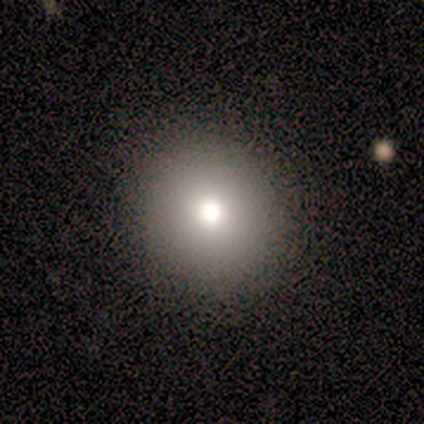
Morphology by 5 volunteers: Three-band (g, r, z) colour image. It shows a smooth galaxy with no disk features (60%) that is round (100%). Merging: none (100%).